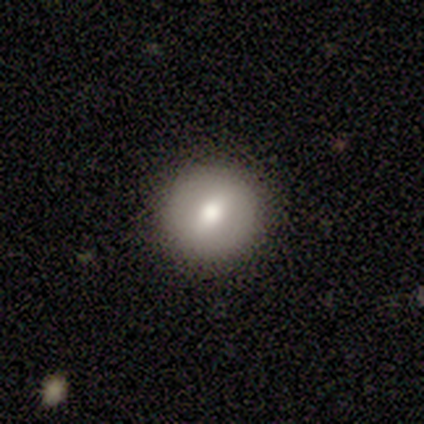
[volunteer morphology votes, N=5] smooth_or_featured: featured or disk (p=0.80) [alt: smooth p=0.20]
disk_edge_on: no (p=1.00)
bar: no (p=0.50) [alt: strong p=0.25]
has_spiral_arms: no (p=1.00)
bulge_size: large (p=0.50) [tied with: moderate p=0.50]
merging: none (p=1.00)